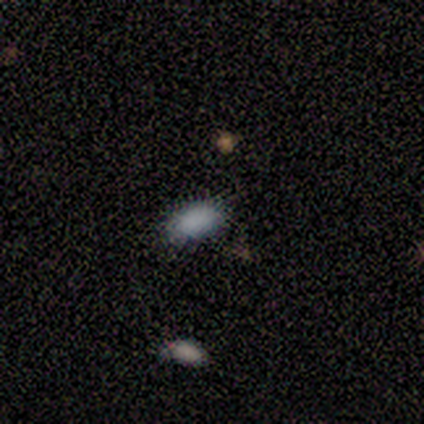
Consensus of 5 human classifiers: smooth-or-featured: smooth: 80% | featured or disk: 20% | star or artifact: 0%
  how-rounded: in between: 100% | round: 0% | cigar-shaped: 0%
  merging: none: 100% | minor disturbance: 0% | major disturbance: 0% | merger: 0%